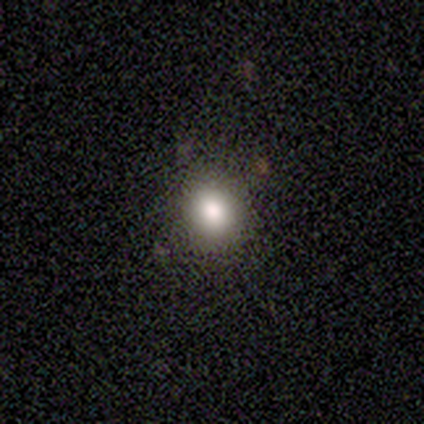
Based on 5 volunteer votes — Smooth or featured? 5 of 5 (100%) said smooth. How rounded? 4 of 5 (80%) said round. Merging? 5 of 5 (100%) said none.